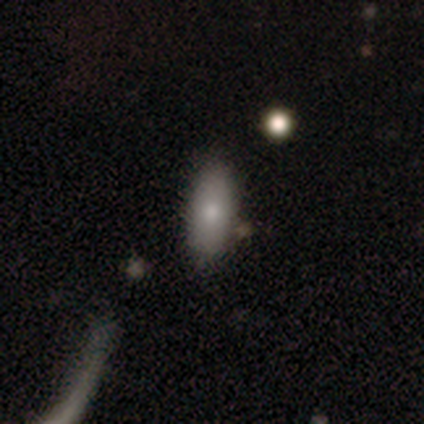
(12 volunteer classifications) smooth-or-featured: smooth: 92% | star or artifact: 8% | featured or disk: 0%
  how-rounded: in between: 91% | cigar-shaped: 9% | round: 0%
  merging: none: 55% | major disturbance: 27% | minor disturbance: 18% | merger: 0%